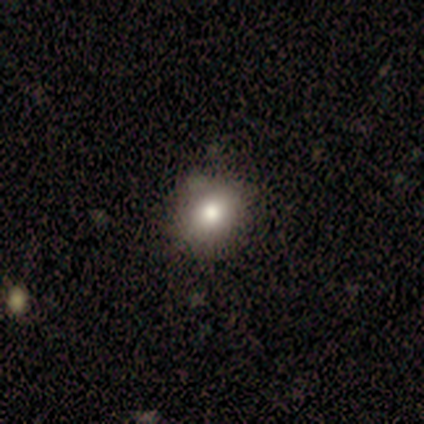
Volunteers were most divided on "smooth or featured": smooth: 71%, featured or disk: 29%, star or artifact: 0%. More confident: merging — none (86%); how rounded — round (80%).